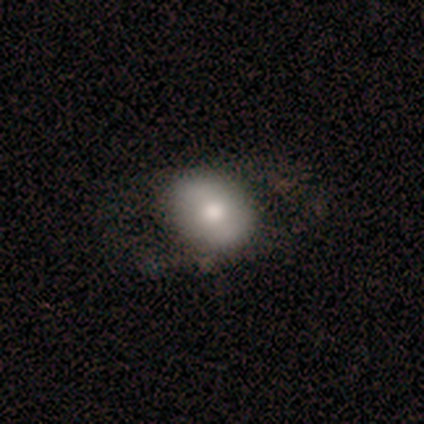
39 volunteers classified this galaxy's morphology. Smooth or featured: smooth — 49% (featured or disk — 46%)
How rounded: round — 58% (in between — 42%)
Merging: none — 54% (minor disturbance — 24%)